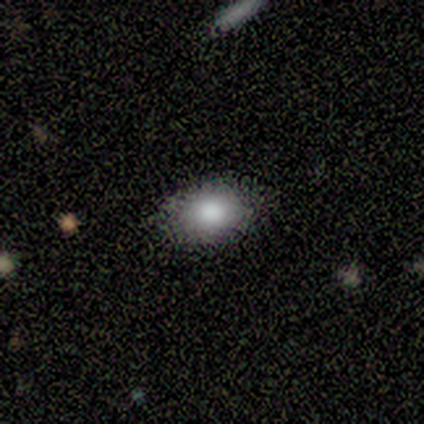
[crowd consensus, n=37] Overall: smooth (78%). How rounded: in between (72%). Merging: none (75%).